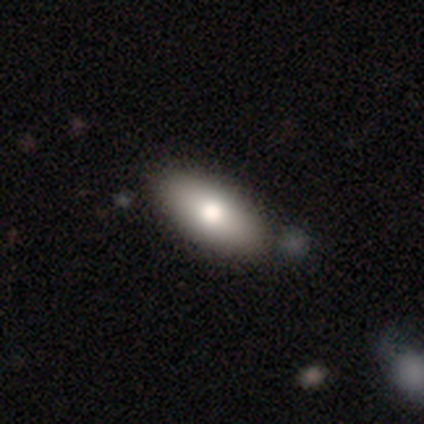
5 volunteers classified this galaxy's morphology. A smooth galaxy with no disk features (100%) that is in between round and cigar-shaped (80%). Merging: none (100%).